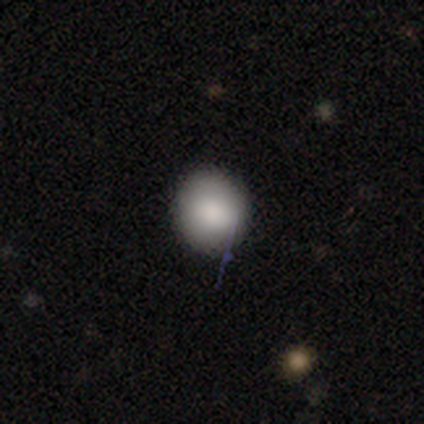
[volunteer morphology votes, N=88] Smooth or featured? 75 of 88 (85%) said smooth. How rounded? 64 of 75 (85%) said round. Merging? 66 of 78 (85%) said none.